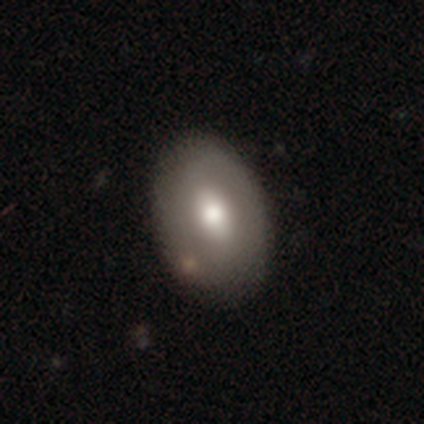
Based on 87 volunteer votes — smooth 64%, featured or disk 29%, star or artifact 7%. Down the decision tree: how rounded — in between (84%); merging — none (79%).